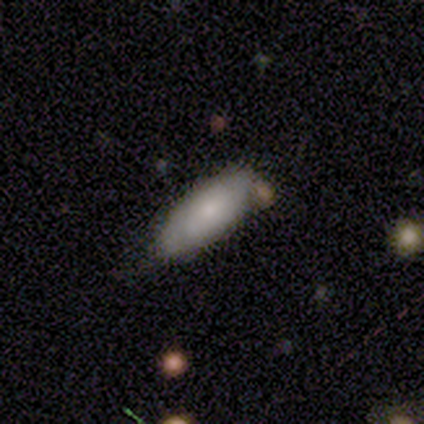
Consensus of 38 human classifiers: smooth-or-featured: smooth: 71% | featured or disk: 26% | star or artifact: 3%
  how-rounded: in between: 89% | cigar-shaped: 11% | round: 0%
  merging: none: 59% | minor disturbance: 22% | merger: 16% | major disturbance: 3%